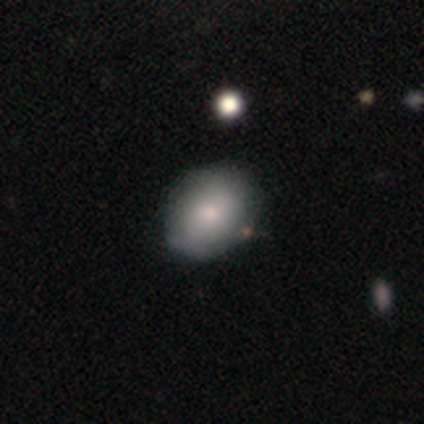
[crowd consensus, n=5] smooth_or_featured: smooth (p=0.60) [alt: featured or disk p=0.40]
how_rounded: round (p=0.67) [alt: in between p=0.33]
merging: none (p=0.80) [alt: minor disturbance p=0.20]